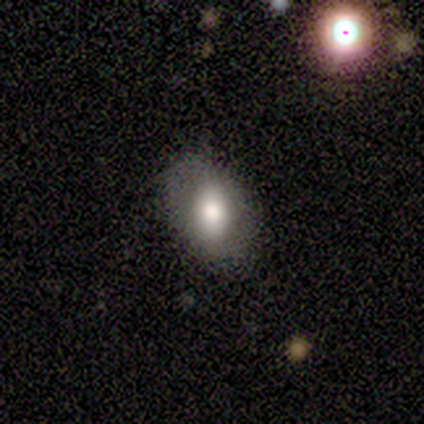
Volunteers were most divided on "smooth or featured": smooth: 75%, star or artifact: 25%, featured or disk: 0%. More confident: how rounded — in between (100%); merging — none (100%).